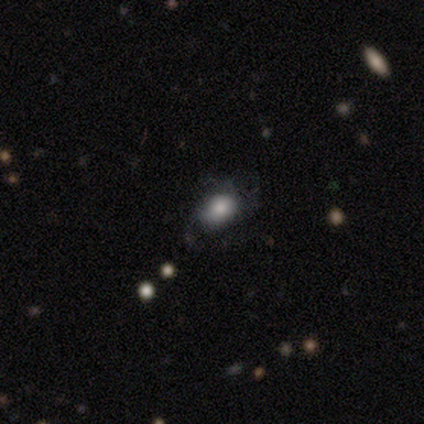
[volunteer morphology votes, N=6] smooth-or-featured: smooth: 67% | featured or disk: 33% | star or artifact: 0%
  how-rounded: in between: 100% | round: 0% | cigar-shaped: 0%
  merging: none: 67% | minor disturbance: 17% | major disturbance: 17% | merger: 0%